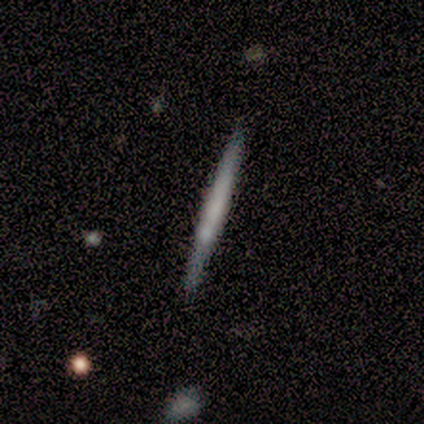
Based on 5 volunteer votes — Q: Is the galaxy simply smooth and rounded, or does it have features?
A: smooth — 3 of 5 (60%).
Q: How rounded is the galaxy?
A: cigar-shaped — 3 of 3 (100%).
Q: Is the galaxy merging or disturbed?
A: none — 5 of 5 (100%).